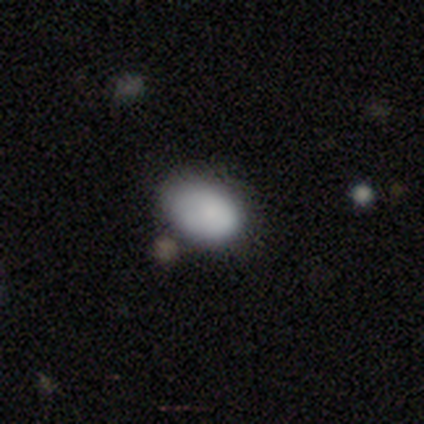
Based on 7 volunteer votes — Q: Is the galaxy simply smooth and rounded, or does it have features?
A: smooth — 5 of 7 (71%).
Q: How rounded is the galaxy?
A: in between — 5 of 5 (100%).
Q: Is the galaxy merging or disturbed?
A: none — 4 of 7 (57%).